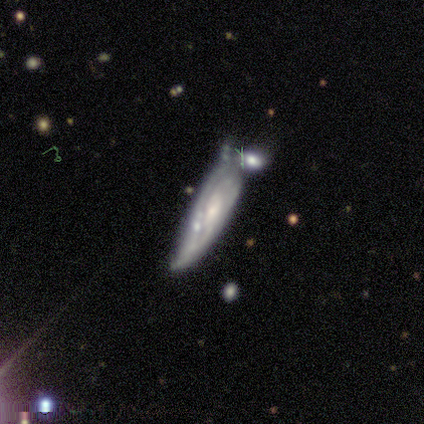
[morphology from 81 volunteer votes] This is clearly a featured or disk galaxy (83%). It is clearly not viewed edge-on (88%). Bar: likely no (61%). Spiral arm pattern: possibly yes (58%). Spiral arm count: possibly can't tell (56%). Spiral winding: possibly tight (59%). Central bulge: possibly small (51%). Merging: marginally merger (36%).